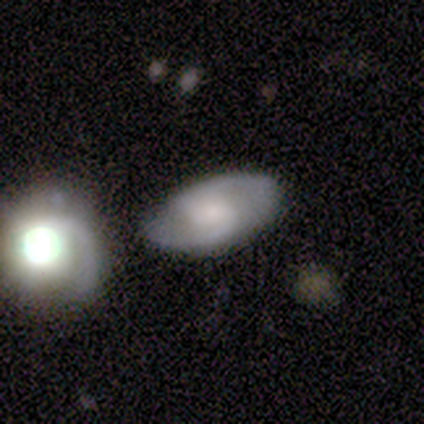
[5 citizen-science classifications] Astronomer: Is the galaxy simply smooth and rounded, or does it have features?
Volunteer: featured or disk — 60% (runner-up: smooth, 40%).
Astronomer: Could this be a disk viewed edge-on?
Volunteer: no — 100%.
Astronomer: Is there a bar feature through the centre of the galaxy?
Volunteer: no — 67%.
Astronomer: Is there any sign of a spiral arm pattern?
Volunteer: yes — 100%.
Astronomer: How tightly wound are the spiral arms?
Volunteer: medium — 67%.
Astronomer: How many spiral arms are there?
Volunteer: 2 — 100%.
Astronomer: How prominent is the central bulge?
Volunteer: none — 67%.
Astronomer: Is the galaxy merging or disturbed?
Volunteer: none — 60% (runner-up: merger, 40%).